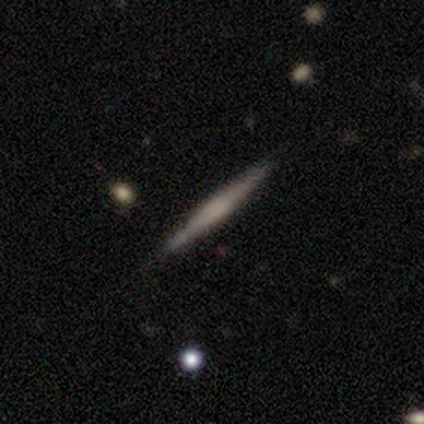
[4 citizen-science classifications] Smooth or featured: featured or disk — 75% (smooth — 25%)
Edge-on disk: yes — 100%
Edge-on bulge: none — 67% (boxy — 33%)
Merging: none — 100%